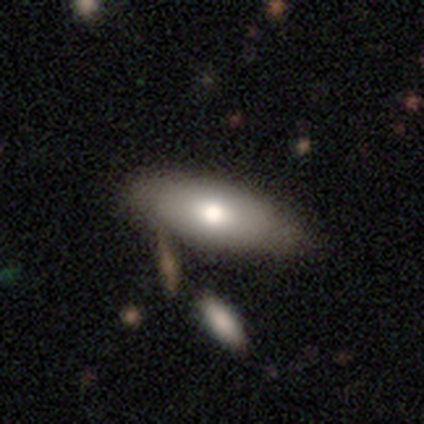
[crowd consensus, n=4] Q: Smooth or featured?
A: smooth (75%); runner-up: featured or disk (25%)
Q: How rounded?
A: in between (100%)
Q: Merging?
A: none (75%); runner-up: minor disturbance (25%)